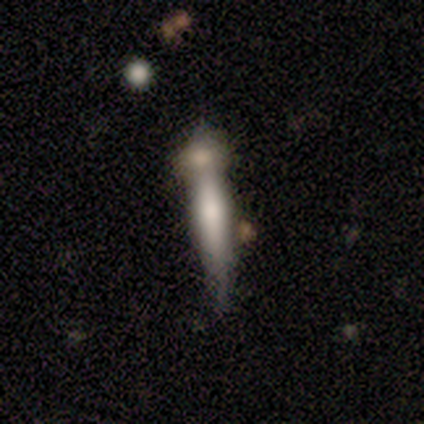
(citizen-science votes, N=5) This is likely a featured or disk galaxy (60%). It is clearly viewed edge-on (100%). Edge-on bulge: likely none (67%). Merging: possibly merger (50%).